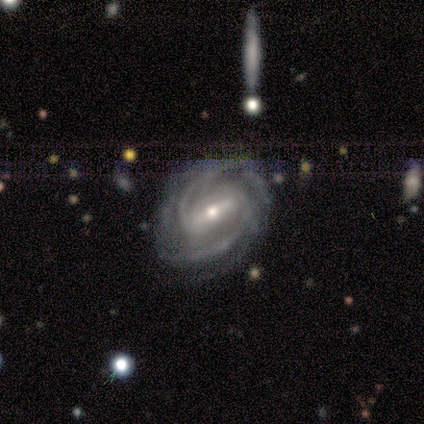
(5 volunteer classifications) A featured or disk galaxy (100%) with a strong bar (80%), 2 (80%) medium (60%) spiral arms (100%) and a small central bulge (80%). Merging: none (60%).